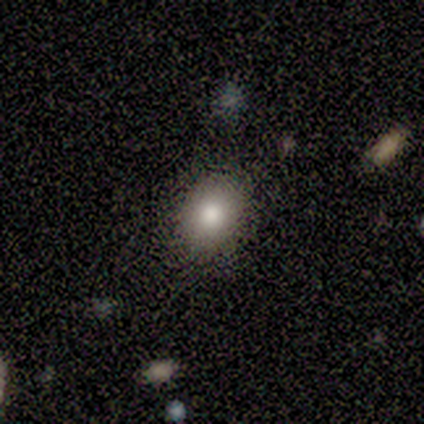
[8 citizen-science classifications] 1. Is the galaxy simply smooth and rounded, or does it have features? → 100% smooth, 0% featured or disk, 0% star or artifact.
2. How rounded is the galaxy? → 75% in between, 25% round, 0% cigar-shaped.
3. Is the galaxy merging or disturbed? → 50% none, 38% minor disturbance, 12% major disturbance, 0% merger.